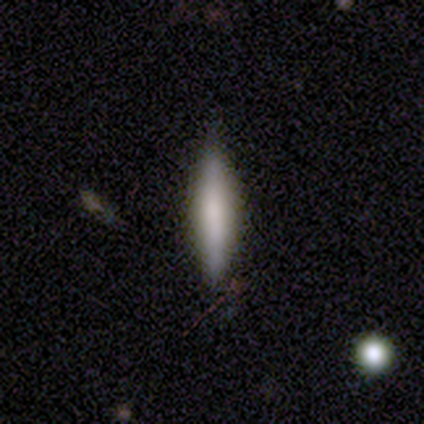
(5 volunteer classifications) Smooth or featured: smooth — 100%
How rounded: cigar-shaped — 100%
Merging: none — 60% (minor disturbance — 40%)